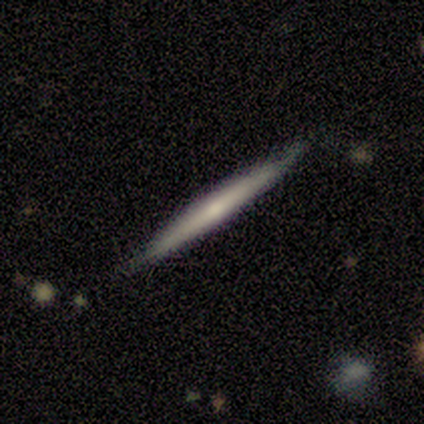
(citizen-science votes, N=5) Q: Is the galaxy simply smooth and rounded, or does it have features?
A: featured or disk — 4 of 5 (80%).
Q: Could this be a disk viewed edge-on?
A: yes — 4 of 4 (100%).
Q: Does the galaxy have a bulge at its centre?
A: none — 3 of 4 (75%).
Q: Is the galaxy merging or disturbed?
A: none — 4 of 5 (80%).